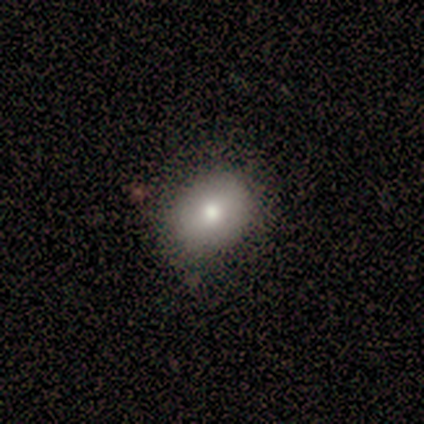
Smooth or featured?
  - smooth: 100% *
  - featured or disk: 0%
  - star or artifact: 0%
How rounded?
  - in between: 80% *
  - round: 20%
  - cigar-shaped: 0%
Merging?
  - minor disturbance: 60% *
  - none: 40%
  - major disturbance: 0%
  - merger: 0%